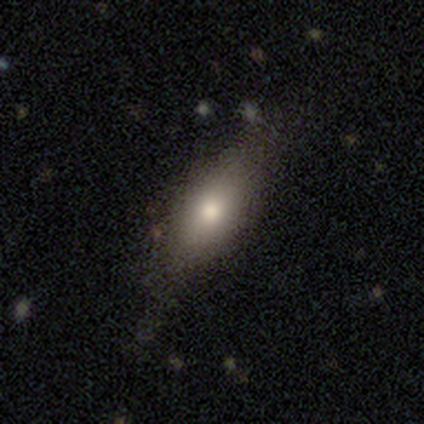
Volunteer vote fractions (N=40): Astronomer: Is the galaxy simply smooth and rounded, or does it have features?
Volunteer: smooth — 70%.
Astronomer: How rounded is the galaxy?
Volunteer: in between — 64%.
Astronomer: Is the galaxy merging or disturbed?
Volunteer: none — 78%.